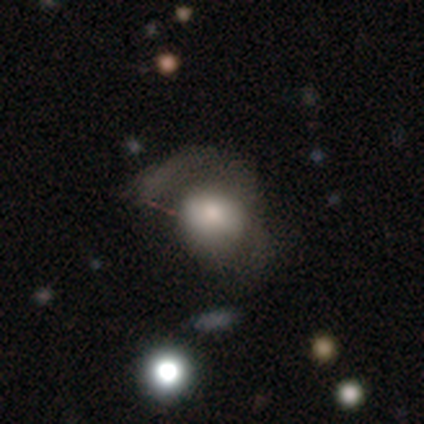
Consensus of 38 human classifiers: Volunteers were most divided on "how rounded": round: 54%, in between: 46%, cigar-shaped: 0%. More confident: merging — major disturbance (66%); smooth or featured — smooth (63%).